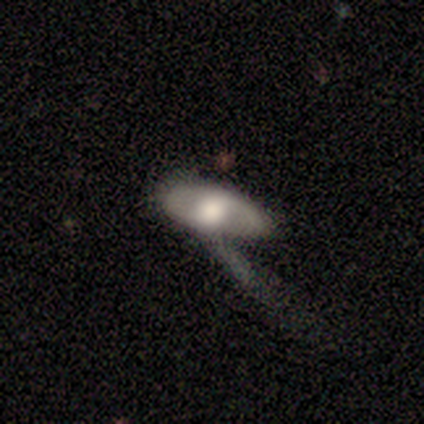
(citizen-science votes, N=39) Overall: featured or disk (54%; smooth 41%). Edge-on disk: no (90%). Bar: no (68%). Spiral arms: yes (63%; no 37%). Spiral arm count: 2 (42%; 1 33%). Spiral winding: tight (42%, tied with loose). Bulge size: large (53%; moderate 21%). Merging: major disturbance (51%; none 19%).